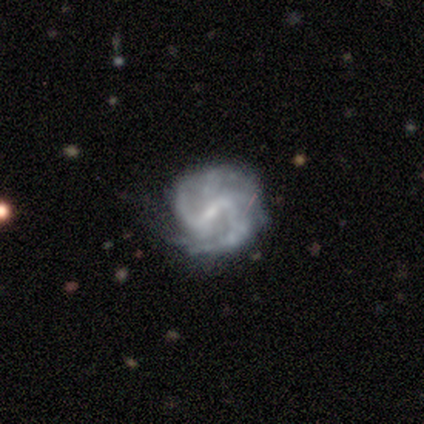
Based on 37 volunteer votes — smooth-or-featured: featured or disk: 92% | star or artifact: 8% | smooth: 0%
  disk-edge-on: no: 100% | yes: 0%
    bar: weak: 53% | strong: 41% | no: 6%
    has-spiral-arms: yes: 97% | no: 3%
      spiral-winding: medium: 70% | loose: 21% | tight: 9%
      spiral-arm-count: 2: 64% | 4: 18% | can't tell: 12% | 3: 6% | 1: 0% | more than 4: 0%
    bulge-size: small: 65% | none: 18% | moderate: 12% | dominant: 3% | large: 3%
  merging: none: 65% | minor disturbance: 26% | major disturbance: 9% | merger: 0%